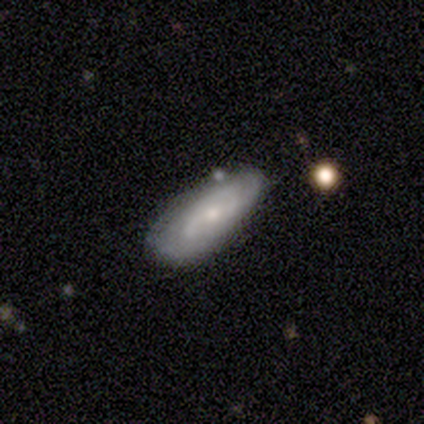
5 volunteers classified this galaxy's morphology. type=featured or disk (60%); edge-on=no (100%); bar=no (67%); spiral arms=yes (100%); winding=tight (67%); arm count=can't tell (67%); bulge=small (67%); merging=none (80%).